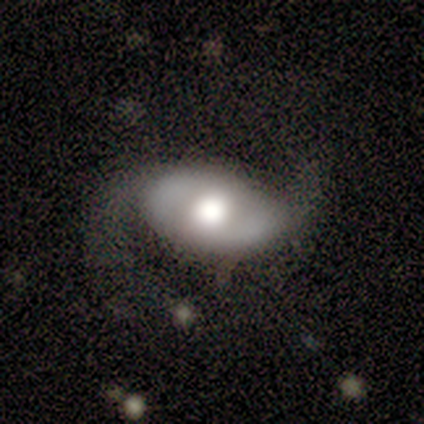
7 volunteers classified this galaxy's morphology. A featured or disk galaxy (71%) with no bar (75%), 2 (67%) loose (67%) spiral arms (75%) and a large central bulge (50%, tied with moderate).

Vote fractions:
- Smooth or featured? featured or disk: 71% / smooth: 29% / star or artifact: 0%
- Edge-on disk? no: 80% / yes: 20%
- Bar? no: 75% / strong: 25% / weak: 0%
- Spiral arms? yes: 75% / no: 25%
- Spiral winding? loose: 67% / medium: 33% / tight: 0%
- Spiral arm count? 2: 67% / can't tell: 33% / 1: 0% / 3: 0% / 4: 0% / more than 4: 0%
- Bulge size? large: 50% (tied) / moderate: 50% (tied) / dominant: 0% / small: 0% / none: 0%
- Merging? minor disturbance: 43% / none: 29% / major disturbance: 29% / merger: 0%